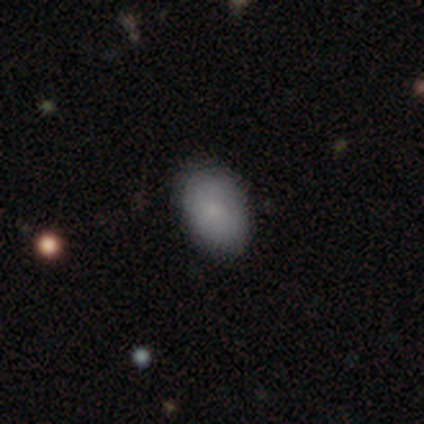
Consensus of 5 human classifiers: smooth-or-featured: smooth: 100% | featured or disk: 0% | star or artifact: 0%
  how-rounded: in between: 80% | round: 20% | cigar-shaped: 0%
  merging: none: 100% | minor disturbance: 0% | major disturbance: 0% | merger: 0%